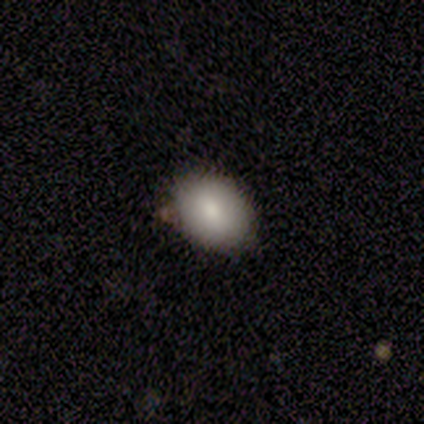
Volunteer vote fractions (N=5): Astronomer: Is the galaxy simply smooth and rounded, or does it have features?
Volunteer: smooth — 100%.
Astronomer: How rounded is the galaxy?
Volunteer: in between — 100%.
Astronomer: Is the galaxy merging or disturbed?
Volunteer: none — 80%.